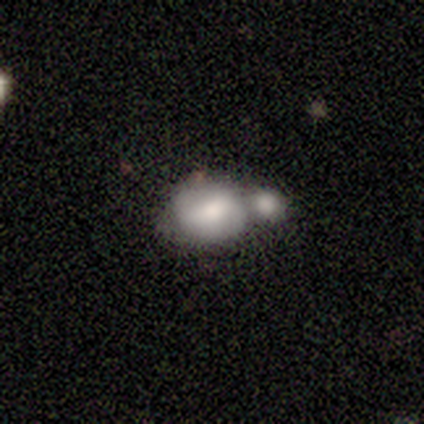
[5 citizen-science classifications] This is likely a smooth galaxy (60%). How rounded: likely round (67%). Merging: likely merger (60%).